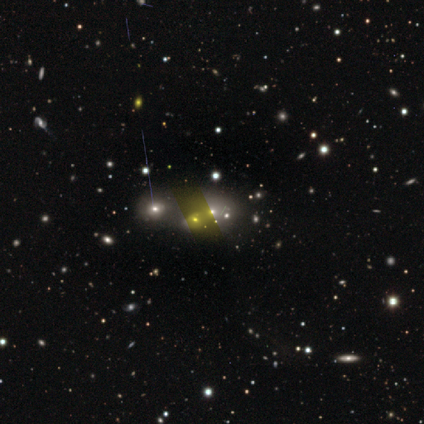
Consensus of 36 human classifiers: Overall: smooth (39%; star or artifact 36%). How rounded: in between (57%; round 43%). Merging: merger (61%).